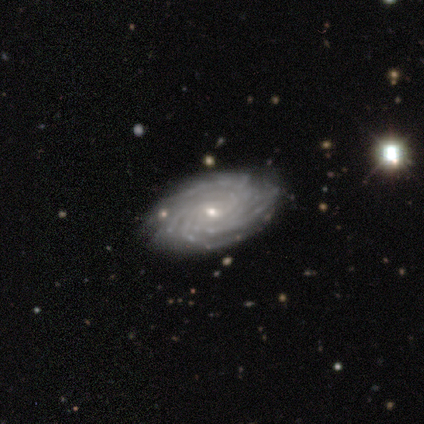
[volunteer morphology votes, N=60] Smooth or featured? 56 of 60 (93%) said featured or disk. Edge-on disk? 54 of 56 (96%) said no. Bar? 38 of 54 (70%) said no. Spiral arms? 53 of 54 (98%) said yes. Spiral winding? 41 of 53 (77%) said tight. Spiral arm count? 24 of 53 (45%) said more than 4. Bulge size? 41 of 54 (76%) said small. Merging? 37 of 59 (63%) said none.